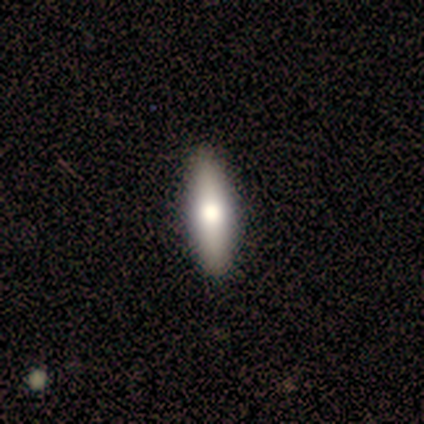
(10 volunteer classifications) This is likely a smooth galaxy (60%). How rounded: likely cigar-shaped (67%). Merging: clearly none (89%).